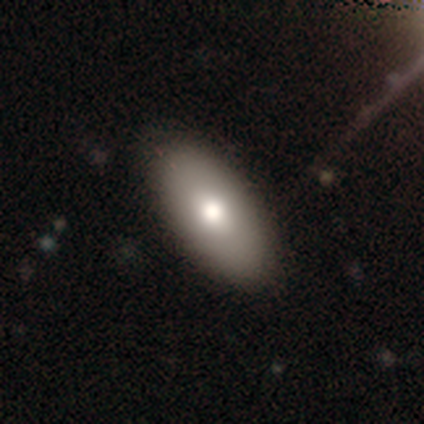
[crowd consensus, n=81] smooth_or_featured: smooth (p=0.81) [alt: featured or disk p=0.17]
how_rounded: in between (p=0.89) [alt: round p=0.06]
merging: none (p=0.45) [alt: minor disturbance p=0.05]